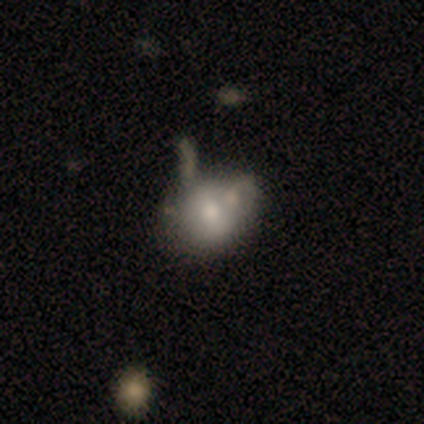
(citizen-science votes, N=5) Smooth or featured? smooth (60%)
How rounded? in between (67%)
Merging? none (40%, tied with minor disturbance)